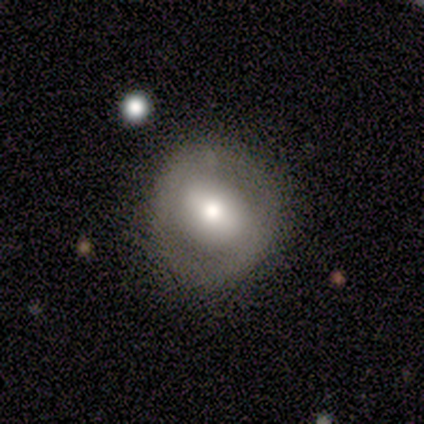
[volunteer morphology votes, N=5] smooth-or-featured: featured or disk: 80% | smooth: 20% | star or artifact: 0%
  disk-edge-on: no: 100% | yes: 0%
    bar: weak: 50% | strong: 25% | no: 25%
    has-spiral-arms: no: 75% | yes: 25%
    bulge-size: large: 75% | moderate: 25% | dominant: 0% | small: 0% | none: 0%
  merging: none: 80% | minor disturbance: 20% | major disturbance: 0% | merger: 0%